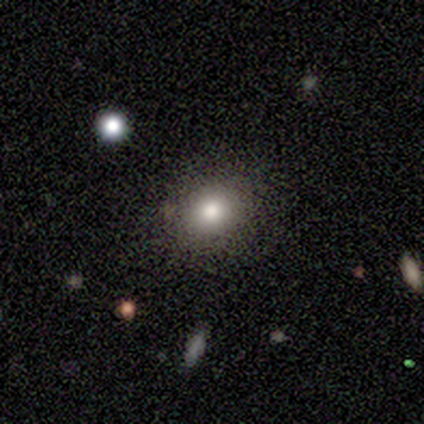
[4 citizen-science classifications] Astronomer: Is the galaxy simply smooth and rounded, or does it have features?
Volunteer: smooth — 100%.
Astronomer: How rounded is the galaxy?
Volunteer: round — 75%.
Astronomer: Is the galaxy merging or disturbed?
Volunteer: none — 100%.